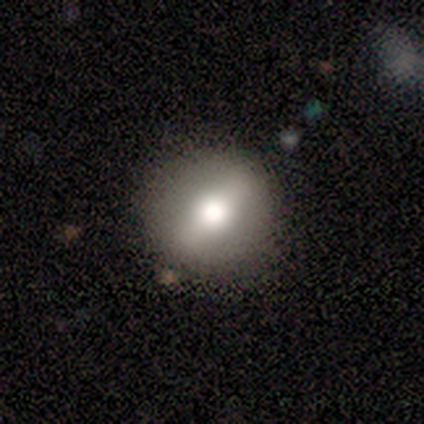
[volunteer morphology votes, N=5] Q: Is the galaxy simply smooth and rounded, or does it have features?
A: smooth — 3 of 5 (60%).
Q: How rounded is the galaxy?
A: round — 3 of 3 (100%).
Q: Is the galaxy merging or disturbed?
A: none — 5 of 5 (100%).